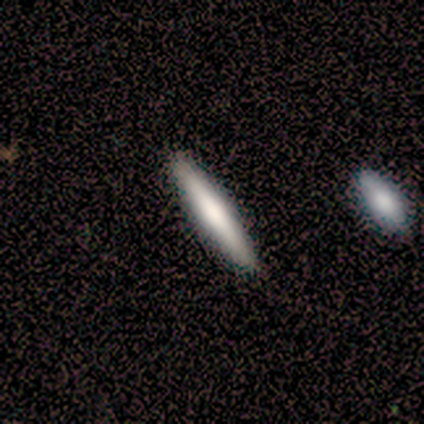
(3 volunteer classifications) A featured or disk galaxy (67%) viewed edge-on (50%, tied with no) with no central bulge (100%).

Vote fractions:
- Smooth or featured? featured or disk: 67% / smooth: 33% / star or artifact: 0%
- Edge-on disk? yes: 50% (tied) / no: 50% (tied)
- Edge-on bulge? none: 100% / boxy: 0% / rounded: 0%
- Merging? minor disturbance: 67% / none: 33% / major disturbance: 0% / merger: 0%